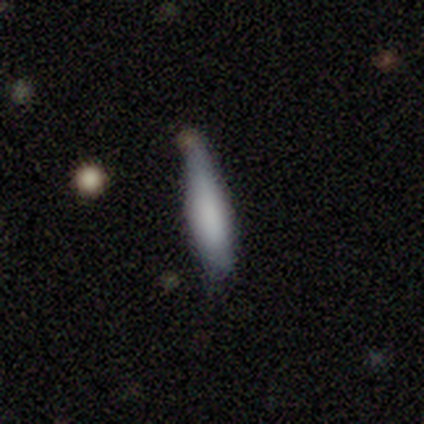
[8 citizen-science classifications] A smooth galaxy with no disk features (75%) that is cigar-shaped (83%). Merging: none (38%, tied with minor disturbance).